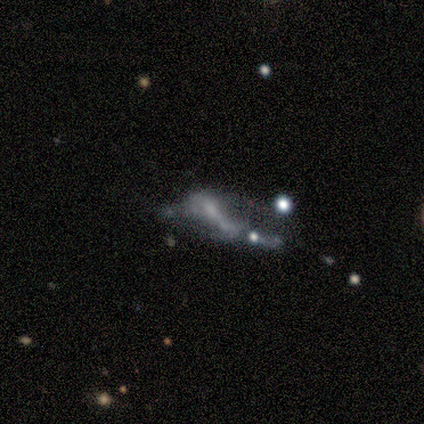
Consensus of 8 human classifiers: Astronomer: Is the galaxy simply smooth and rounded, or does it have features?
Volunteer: smooth — 38%, tied with featured or disk at 38%.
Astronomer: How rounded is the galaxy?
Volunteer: in between — 100%.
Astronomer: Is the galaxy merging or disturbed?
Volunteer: none — 33%, tied with major disturbance at 33%.